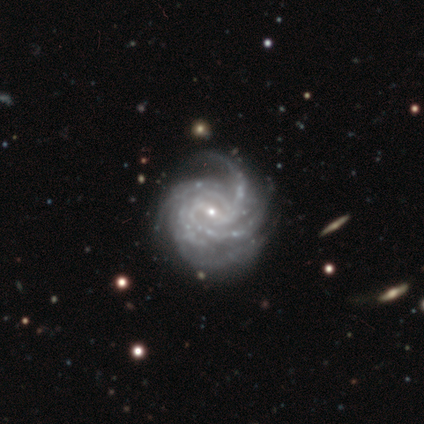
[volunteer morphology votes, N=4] This is clearly a featured or disk galaxy (100%). It is clearly not viewed edge-on (100%). Bar: possibly strong (50%). Spiral arm pattern: clearly yes (100%). Spiral arm count: possibly 4 (50%). Spiral winding: likely tight (75%). Central bulge: possibly small (50%). Merging: possibly none (50%, tied with minor disturbance).